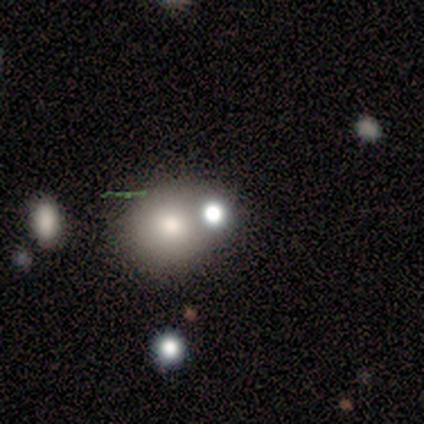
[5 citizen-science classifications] Volunteers were most divided on "merging": none: 50%, minor disturbance: 25%, major disturbance: 25%, merger: 0%. More confident: how rounded — round (67%); smooth or featured — smooth (60%).